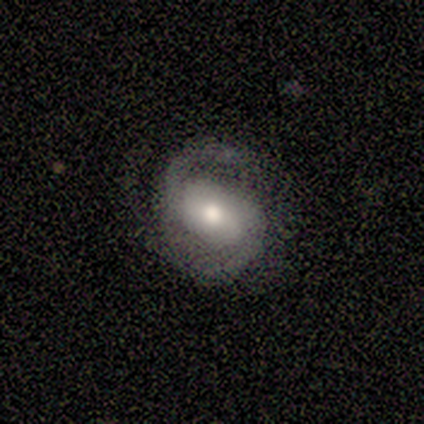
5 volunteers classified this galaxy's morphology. Volunteers were most divided on "smooth or featured" (2-way tie): smooth: 40%, featured or disk: 40%, star or artifact: 20%; "how rounded" (2-way tie): round: 50%, in between: 50%, cigar-shaped: 0%. More confident: merging — none (50%).